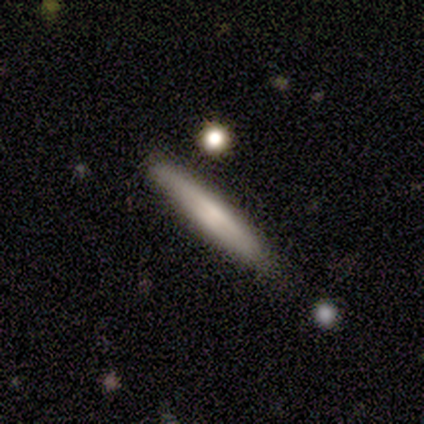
Volunteers were most divided on "edge-on bulge" (3-way tie): boxy: 33%, none: 33%, rounded: 33%. More confident: smooth or featured — featured or disk (80%); edge-on disk — yes (75%); merging — none (60%).